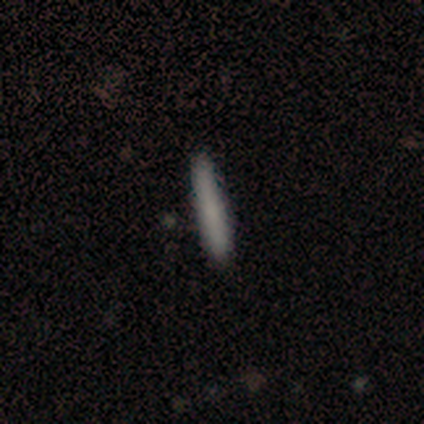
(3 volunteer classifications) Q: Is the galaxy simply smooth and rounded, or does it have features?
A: smooth — 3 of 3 (100%).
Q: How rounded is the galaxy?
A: cigar-shaped — 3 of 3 (100%).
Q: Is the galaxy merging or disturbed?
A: none — 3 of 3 (100%).